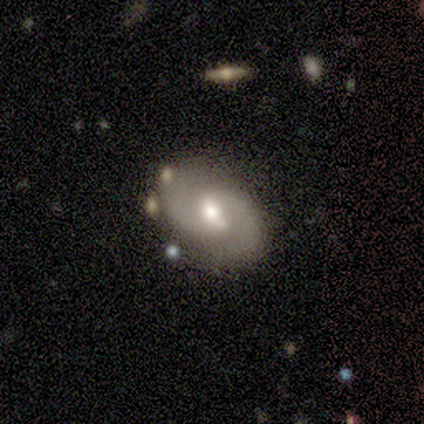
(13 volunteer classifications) featured or disk 69%, smooth 15%, star or artifact 15%. Down the decision tree: edge-on disk — no (100%); bar — weak (78%); spiral arms — yes (100%); spiral arm count — 2 (100%); spiral winding — medium (67%); bulge size — moderate (78%); merging — none (64%).